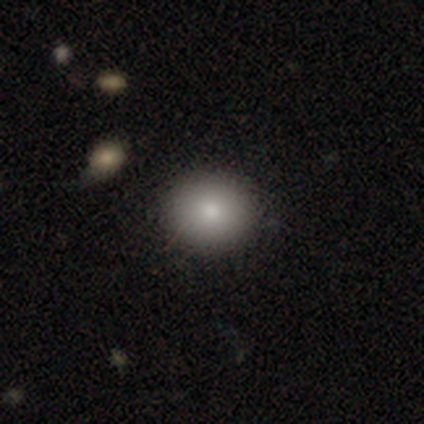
smooth 80%, featured or disk 20%, star or artifact 0%. Down the decision tree: how rounded — round (100%); merging — none (40%, tied with minor disturbance).